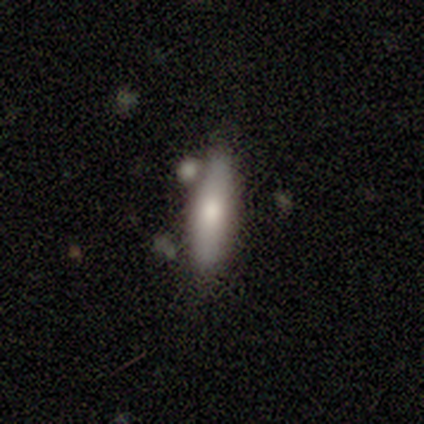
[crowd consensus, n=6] Morphology: type=smooth (83%); roundness=cigar-shaped (80%); merging=none (50%, tied with minor disturbance).